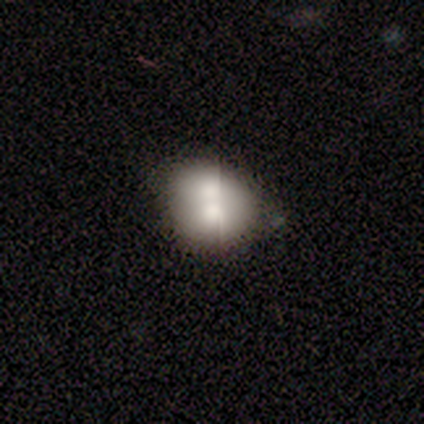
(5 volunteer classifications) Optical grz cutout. It shows a smooth galaxy with no disk features (60%) that is round (67%). Merging: none (33%, tied with minor disturbance and merger).